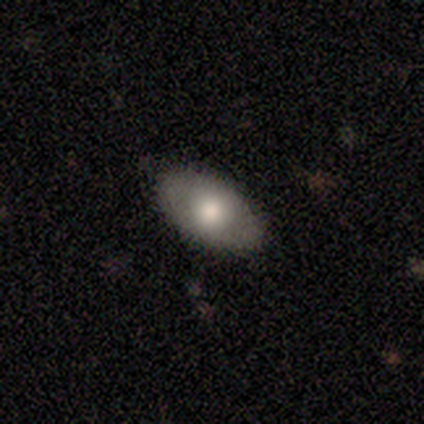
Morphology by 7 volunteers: smooth-or-featured: smooth: 57% | featured or disk: 43% | star or artifact: 0%
  how-rounded: in between: 100% | round: 0% | cigar-shaped: 0%
  merging: none: 86% | minor disturbance: 14% | major disturbance: 0% | merger: 0%